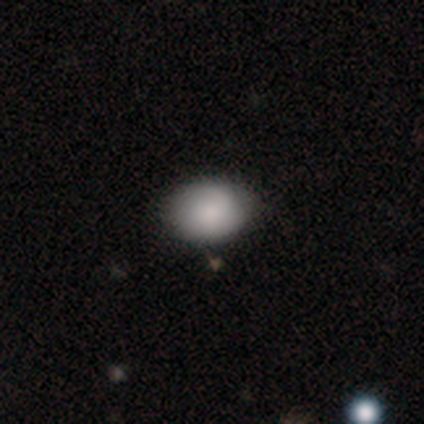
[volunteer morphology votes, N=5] Smooth or featured: smooth — 60% (featured or disk — 40%)
How rounded: in between — 100%
Merging: none — 80% (minor disturbance — 20%)